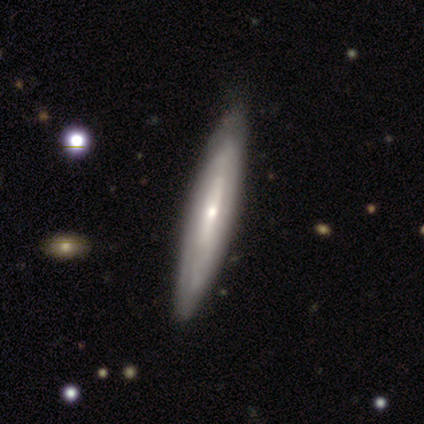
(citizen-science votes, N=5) Overall: featured or disk (100%). Edge-on disk: yes (80%). Edge-on bulge: rounded (75%). Merging: none (80%).